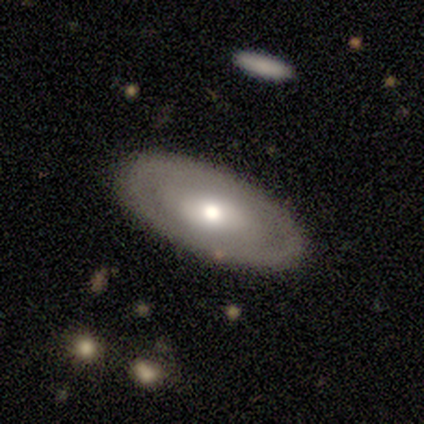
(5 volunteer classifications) Q: Smooth or featured?
A: featured or disk (60%); runner-up: smooth (40%)
Q: Edge-on disk?
A: no (100%)
Q: Bar?
A: no (100%)
Q: Spiral arms?
A: no (67%); runner-up: yes (33%)
Q: Bulge size?
A: moderate (100%)
Q: Merging?
A: none (100%)